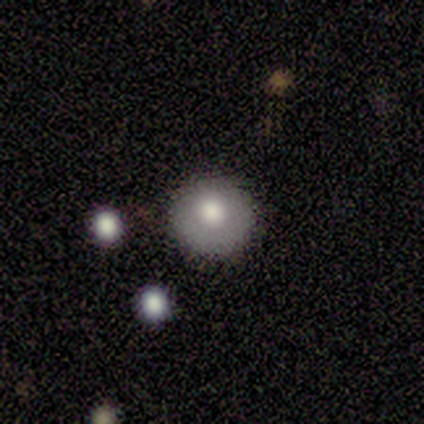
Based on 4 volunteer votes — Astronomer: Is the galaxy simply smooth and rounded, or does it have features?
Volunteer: smooth — 100%.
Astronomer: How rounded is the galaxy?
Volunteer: round — 100%.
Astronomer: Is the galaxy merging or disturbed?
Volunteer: none — 100%.